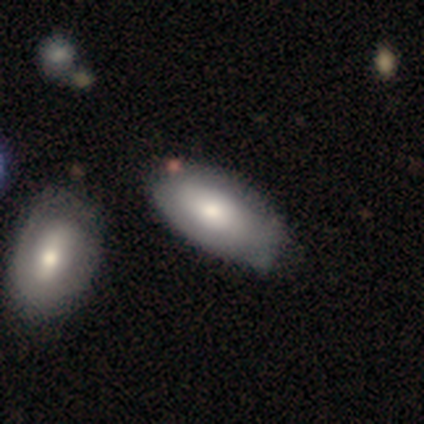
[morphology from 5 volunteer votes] Smooth or featured? smooth (60%)
How rounded? in between (100%)
Merging? none (40%, tied with merger)